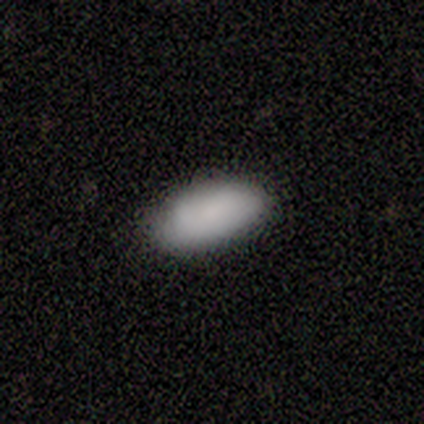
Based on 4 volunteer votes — smooth_or_featured: smooth (p=1.00)
how_rounded: in between (p=1.00)
merging: none (p=1.00)